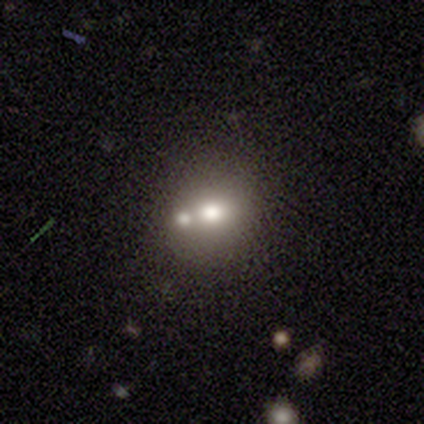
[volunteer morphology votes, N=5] star or artifact 60%, smooth 40%, featured or disk 0%.